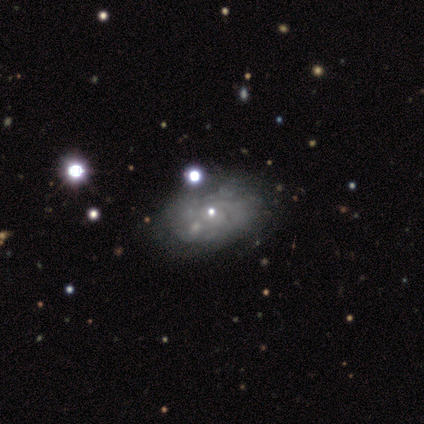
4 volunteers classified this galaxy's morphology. Volunteers were most divided on "smooth or featured" (2-way tie): featured or disk: 50%, star or artifact: 50%, smooth: 0%; "spiral arm count" (2-way tie): 3: 50%, can't tell: 50%, 1: 0%, 2: 0%, 4: 0%, more than 4: 0%. More confident: edge-on disk — no (100%); bar — no (100%); spiral arms — yes (100%); spiral winding — tight (100%); bulge size — moderate (100%); merging — none (100%).